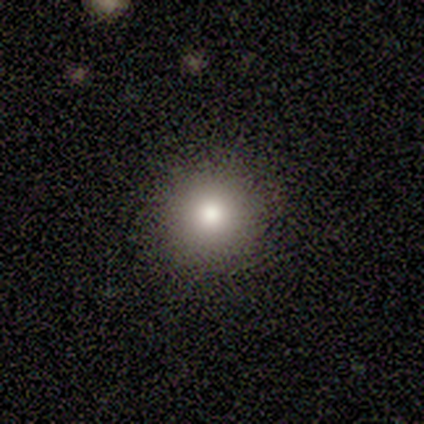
Morphology: type=smooth (100%); roundness=round (100%); merging=none (100%).